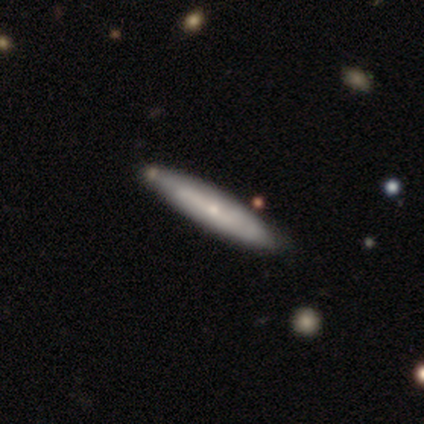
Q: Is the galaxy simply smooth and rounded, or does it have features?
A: smooth — 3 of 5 (60%).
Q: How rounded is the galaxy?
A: cigar-shaped — 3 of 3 (100%).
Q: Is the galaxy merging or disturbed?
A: none — 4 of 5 (80%).